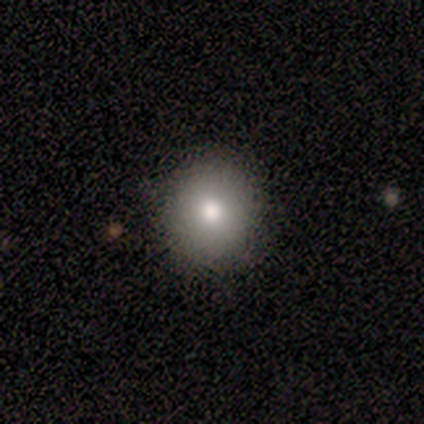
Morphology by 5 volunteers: This is likely a smooth galaxy (60%). How rounded: clearly round (100%). Merging: clearly none (100%).